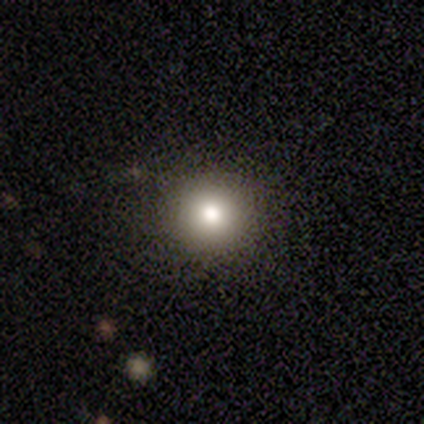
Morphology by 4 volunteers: smooth-or-featured: smooth: 75% | featured or disk: 25% | star or artifact: 0%
  how-rounded: round: 100% | in between: 0% | cigar-shaped: 0%
  merging: none: 100% | minor disturbance: 0% | major disturbance: 0% | merger: 0%